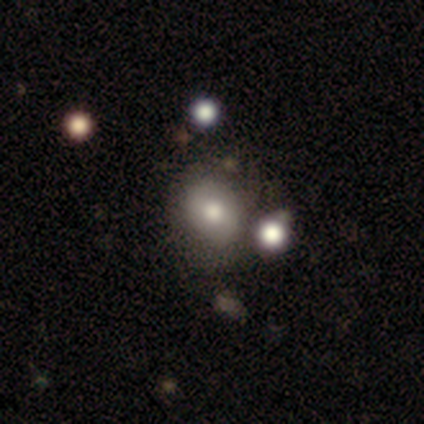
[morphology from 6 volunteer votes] Volunteers were most divided on "smooth or featured": smooth: 50%, featured or disk: 33%, star or artifact: 17%. More confident: how rounded — round (100%); merging — none (80%).